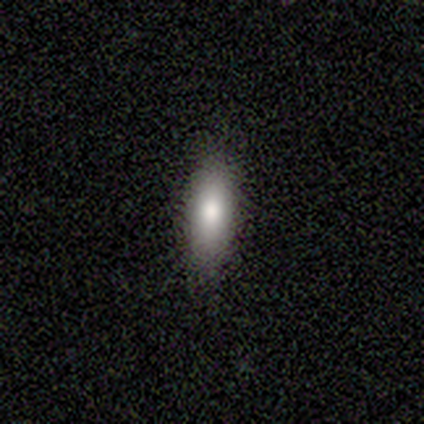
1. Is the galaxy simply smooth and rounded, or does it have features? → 89% smooth, 11% featured or disk, 0% star or artifact.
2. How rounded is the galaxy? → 75% in between, 25% cigar-shaped, 0% round.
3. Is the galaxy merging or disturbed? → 78% none, 22% minor disturbance, 0% major disturbance, 0% merger.